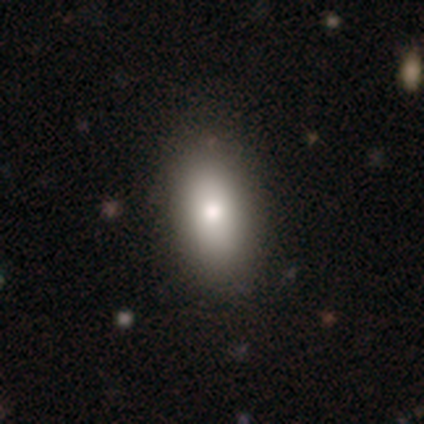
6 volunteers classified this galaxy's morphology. type=smooth (83%); roundness=in between (100%); merging=none (100%).